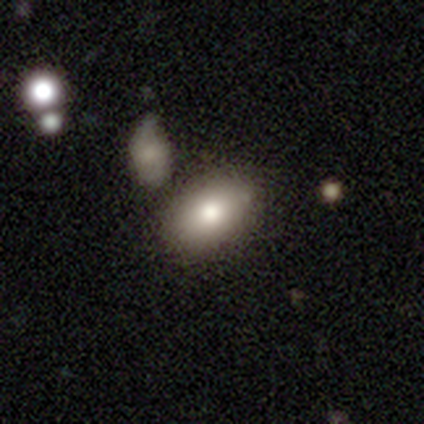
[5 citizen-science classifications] Smooth or featured: smooth — 100%
How rounded: in between — 80% (round — 20%)
Merging: none — 80% (minor disturbance — 20%)